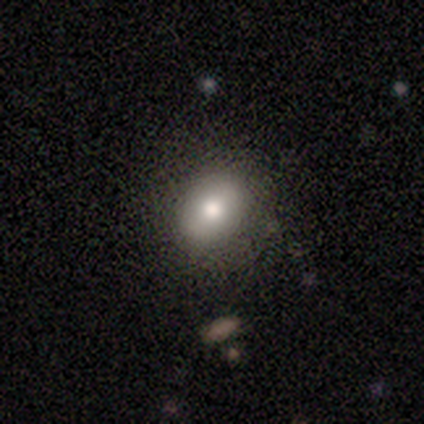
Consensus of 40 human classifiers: smooth_or_featured: smooth (p=0.88) [alt: featured or disk p=0.10]
how_rounded: in between (p=0.89) [alt: round p=0.11]
merging: none (p=0.59) [alt: minor disturbance p=0.05]